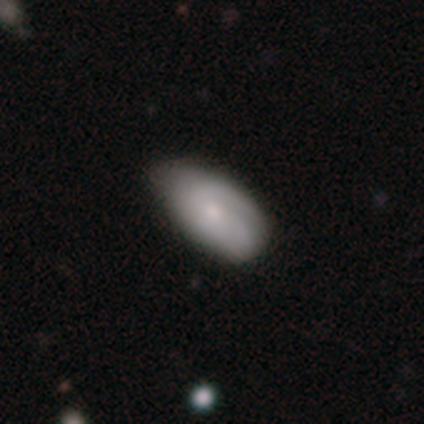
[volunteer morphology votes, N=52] This is possibly a smooth galaxy (60%). How rounded: clearly in between (94%). Merging: possibly none (59%).